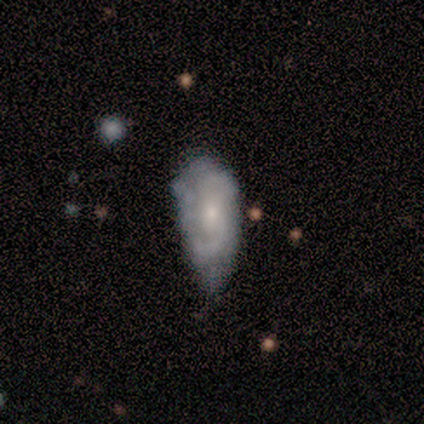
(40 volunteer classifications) featured or disk 52%, smooth 38%, star or artifact 10%. Down the decision tree: edge-on disk — no (100%); bar — no (76%); spiral arms — no (52%); bulge size — small (71%); merging — minor disturbance (64%).